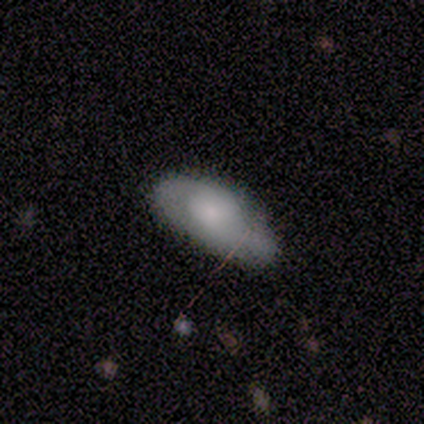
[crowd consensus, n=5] smooth_or_featured: featured or disk (p=0.60) [alt: smooth p=0.40]
disk_edge_on: no (p=1.00)
bar: no (p=1.00)
has_spiral_arms: no (p=1.00)
bulge_size: large (p=0.67) [alt: moderate p=0.33]
merging: none (p=1.00)